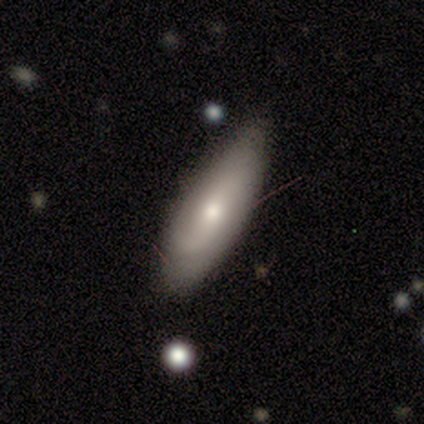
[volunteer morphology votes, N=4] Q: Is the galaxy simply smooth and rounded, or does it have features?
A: smooth — 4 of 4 (100%).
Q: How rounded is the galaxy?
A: in between — 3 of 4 (75%).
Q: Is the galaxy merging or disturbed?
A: none — 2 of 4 (50%, tied with minor disturbance).